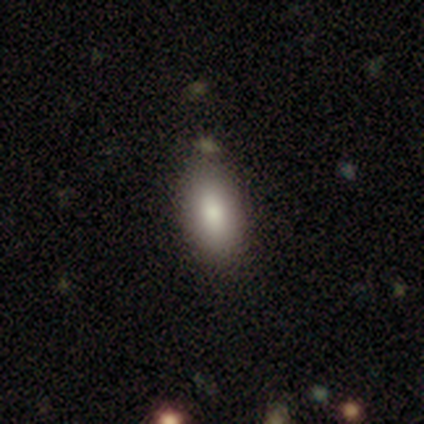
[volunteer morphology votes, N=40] smooth_or_featured: smooth (p=0.90) [alt: star or artifact p=0.07]
how_rounded: in between (p=0.89) [alt: cigar-shaped p=0.11]
merging: none (p=0.73) [alt: minor disturbance p=0.19]